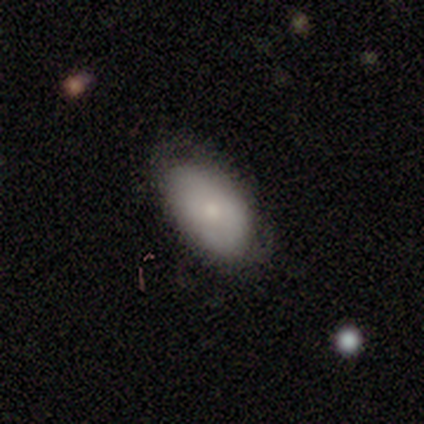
Smooth or featured? smooth (80%)
How rounded? in between (100%)
Merging? none (80%)